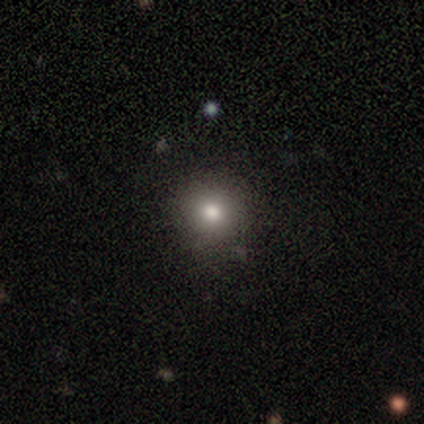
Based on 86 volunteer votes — smooth_or_featured: smooth (p=0.74) [alt: star or artifact p=0.19]
how_rounded: round (p=1.00)
merging: none (p=0.83) [alt: minor disturbance p=0.16]